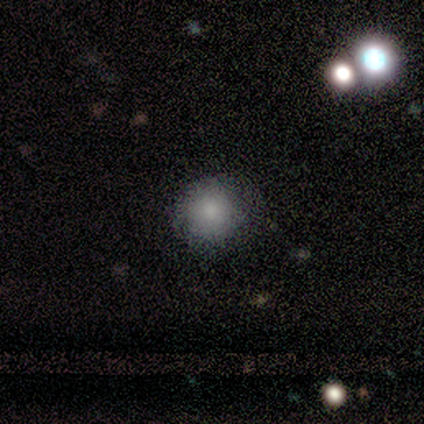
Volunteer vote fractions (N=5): A smooth galaxy with no disk features (100%) that is round (100%).

Vote fractions:
- Smooth or featured? smooth: 100% / featured or disk: 0% / star or artifact: 0%
- How rounded? round: 100% / in between: 0% / cigar-shaped: 0%
- Merging? none: 80% / major disturbance: 20% / minor disturbance: 0% / merger: 0%